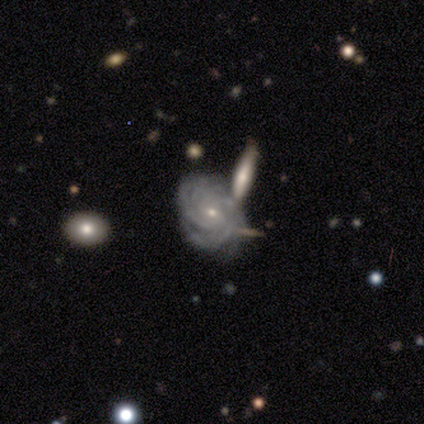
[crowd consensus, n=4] featured or disk 75%, star or artifact 25%, smooth 0%. Down the decision tree: edge-on disk — no (100%); bar — no (67%); spiral arms — yes (100%); spiral arm count — more than 4 (100%); spiral winding — tight (100%); bulge size — small (100%); merging — minor disturbance (67%).